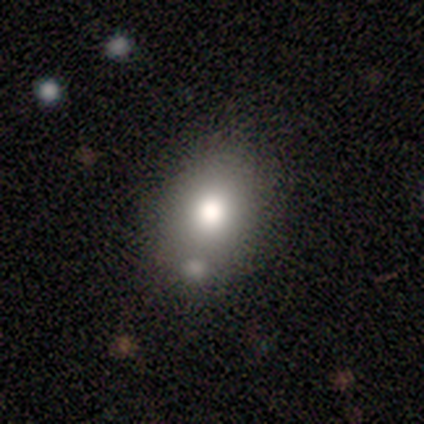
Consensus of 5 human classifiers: Smooth or featured? 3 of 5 (60%) said smooth. How rounded? 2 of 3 (67%) said in between. Merging? 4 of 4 (100%) said none.